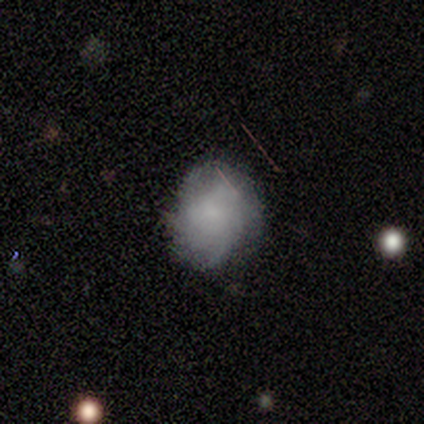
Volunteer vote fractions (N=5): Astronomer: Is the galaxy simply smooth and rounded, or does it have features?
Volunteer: smooth — 60% (runner-up: featured or disk, 40%).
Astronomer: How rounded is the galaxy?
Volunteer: round — 67%.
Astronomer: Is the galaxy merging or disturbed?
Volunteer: none — 80%.